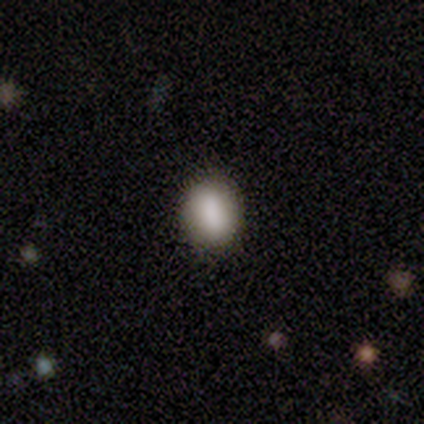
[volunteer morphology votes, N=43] Volunteers were most divided on "how rounded": in between: 62%, round: 32%, cigar-shaped: 5%. More confident: smooth or featured — smooth (86%); merging — none (85%).